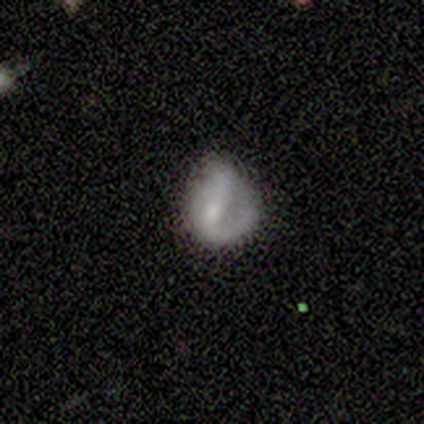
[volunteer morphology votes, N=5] Overall: featured or disk (60%; smooth 40%). Edge-on disk: no (100%). Bar: strong (67%; no 33%). Spiral arms: yes (67%; no 33%). Spiral arm count: 1 (100%). Spiral winding: tight (50%, tied with medium). Bulge size: small (67%; moderate 33%). Merging: none (60%; minor disturbance 40%).